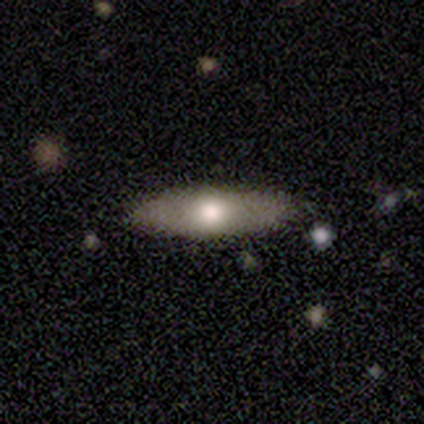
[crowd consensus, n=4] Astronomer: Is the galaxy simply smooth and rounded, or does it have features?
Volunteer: featured or disk — 100%.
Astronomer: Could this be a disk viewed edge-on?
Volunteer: yes — 50%, tied with no at 50%.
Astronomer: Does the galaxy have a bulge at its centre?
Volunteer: none — 50%, tied with rounded at 50%.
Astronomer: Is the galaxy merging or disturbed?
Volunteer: none — 100%.